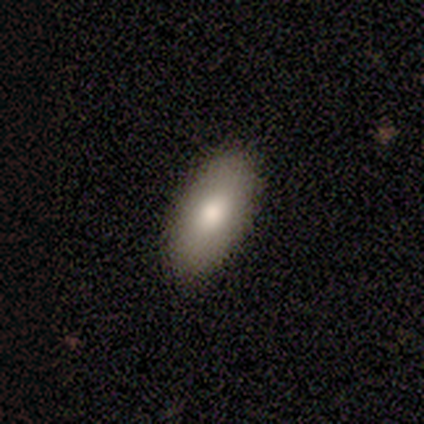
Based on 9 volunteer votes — Smooth or featured? 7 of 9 (78%) said smooth. How rounded? 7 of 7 (100%) said in between. Merging? 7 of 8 (88%) said none.